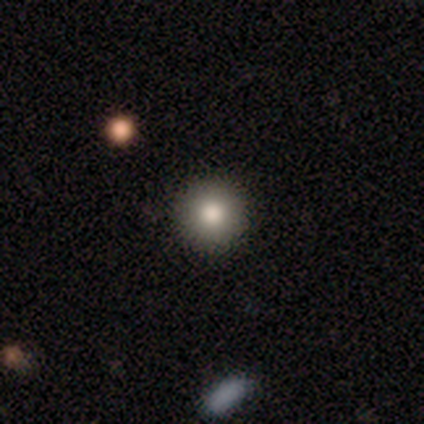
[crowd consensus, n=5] Q: Smooth or featured?
A: smooth (100%)
Q: How rounded?
A: round (100%)
Q: Merging?
A: none (100%)